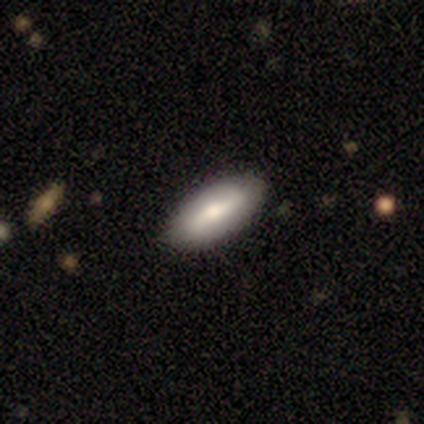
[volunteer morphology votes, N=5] type=smooth (60%); roundness=in between (100%); merging=none (100%).